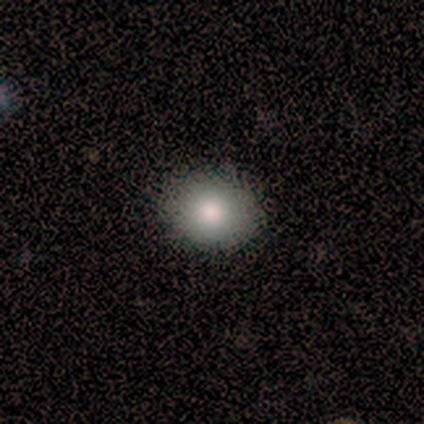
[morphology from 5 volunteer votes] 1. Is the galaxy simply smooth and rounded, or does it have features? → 80% smooth, 20% star or artifact, 0% featured or disk.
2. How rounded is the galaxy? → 50% round (tied), 50% in between (tied), 0% cigar-shaped.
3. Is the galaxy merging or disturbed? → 100% none, 0% minor disturbance, 0% major disturbance, 0% merger.